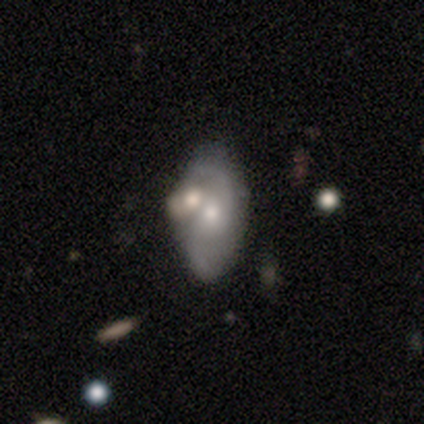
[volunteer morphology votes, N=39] Smooth or featured?
  - featured or disk: 72% *
  - smooth: 26%
  - star or artifact: 3%
Edge-on disk?
  - no: 96% *
  - yes: 4%
Bar?
  - no: 67% *
  - weak: 30%
  - strong: 4%
Spiral arms?
  - yes: 70% *
  - no: 30%
Spiral winding?
  - loose: 53% *
  - medium: 37%
  - tight: 11%
Spiral arm count?
  - 2: 89% *
  - 1: 5%
  - can't tell: 5%
  - 3: 0%
  - 4: 0%
  - more than 4: 0%
Bulge size?
  - small: 52% *
  - moderate: 37%
  - large: 7%
  - dominant: 4%
  - none: 0%
Merging?
  - none: 42% * (tied)
  - merger: 42% * (tied)
  - minor disturbance: 16%
  - major disturbance: 0%